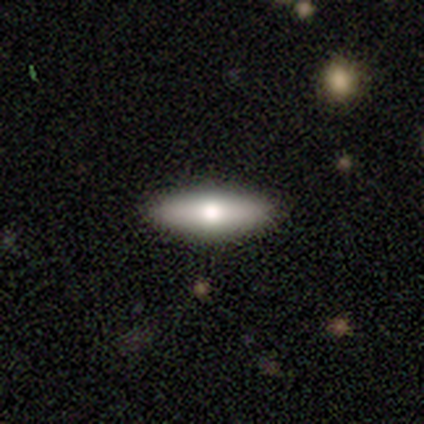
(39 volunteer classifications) Morphology: type=smooth (56%); roundness=cigar-shaped (55%); merging=none (91%).